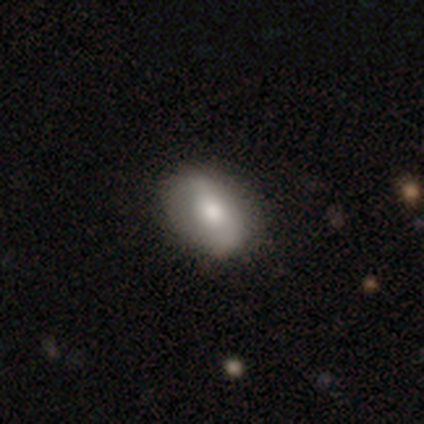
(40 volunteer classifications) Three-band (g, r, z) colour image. It shows a smooth galaxy with no disk features (55%) that is in between round and cigar-shaped (86%). Merging: none (47%).